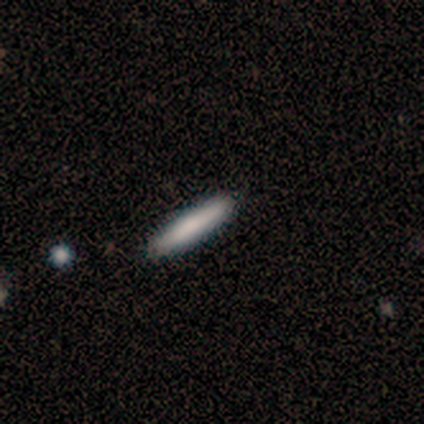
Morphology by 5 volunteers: smooth_or_featured: smooth (p=0.80) [alt: featured or disk p=0.20]
how_rounded: cigar-shaped (p=1.00)
merging: none (p=0.80) [alt: minor disturbance p=0.20]